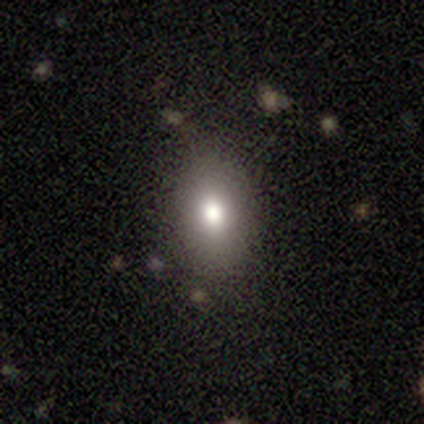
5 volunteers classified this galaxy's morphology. Overall: smooth (80%). How rounded: round (50%, tied with in between). Merging: none (100%).